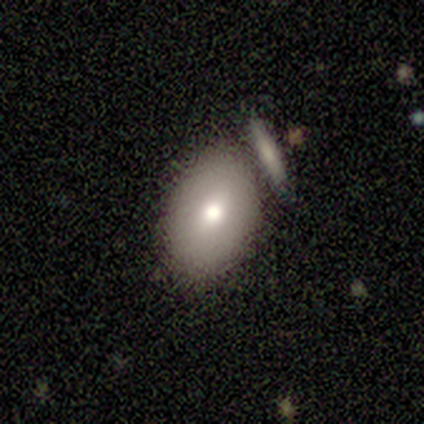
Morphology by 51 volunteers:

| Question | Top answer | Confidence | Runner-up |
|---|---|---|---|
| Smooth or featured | smooth | 71% | featured or disk (22%) |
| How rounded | in between | 83% | round (17%) |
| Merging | none | 64% | merger (30%) |